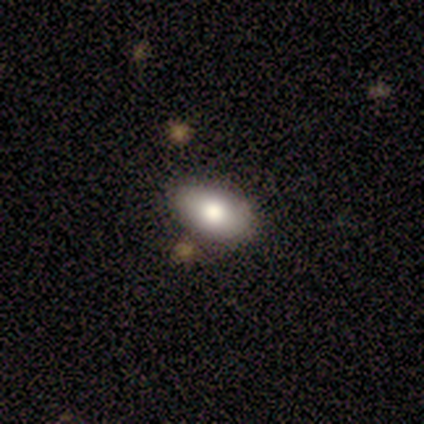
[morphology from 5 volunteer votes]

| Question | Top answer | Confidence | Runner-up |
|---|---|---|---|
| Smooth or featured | smooth | 60% | featured or disk (20%) |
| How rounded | in between | 100% | — |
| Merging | none | 100% | — |